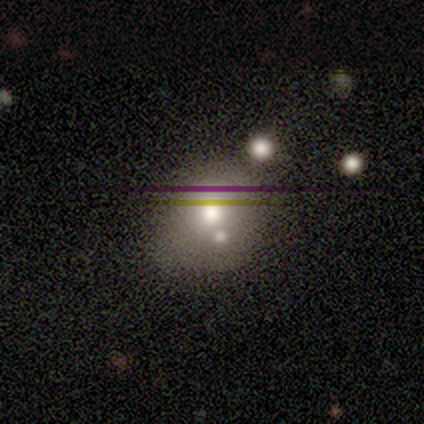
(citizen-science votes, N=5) Smooth or featured: smooth — 60% (featured or disk — 40%)
How rounded: round — 100%
Merging: none — 60% (minor disturbance — 20%)